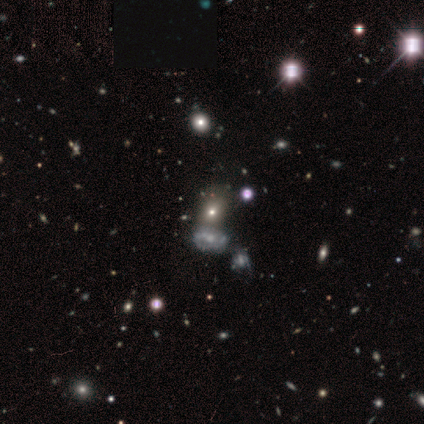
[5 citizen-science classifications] Morphology: type=featured or disk (60%); edge-on=no (100%); bar=no (100%); spiral arms=no (67%); bulge=moderate (67%); merging=none (75%).